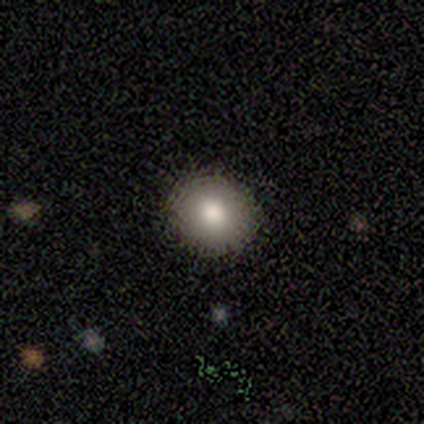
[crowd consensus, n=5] This is clearly a smooth galaxy (80%). How rounded: clearly round (100%). Merging: clearly none (100%).